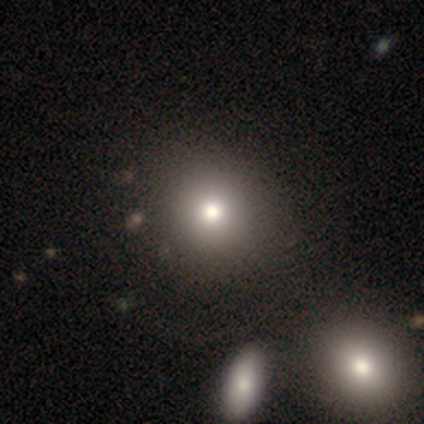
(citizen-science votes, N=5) Morphology: type=smooth (100%); roundness=round (100%); merging=none (80%).